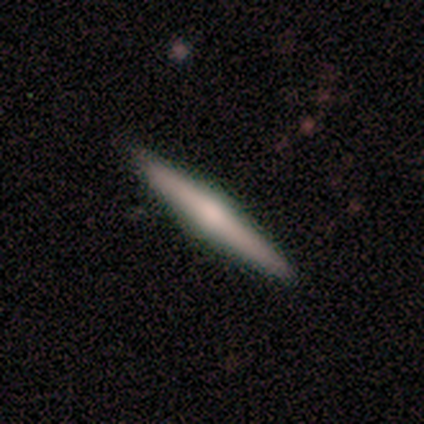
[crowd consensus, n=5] Overall: smooth (60%; featured or disk 40%). How rounded: cigar-shaped (100%). Merging: none (100%).